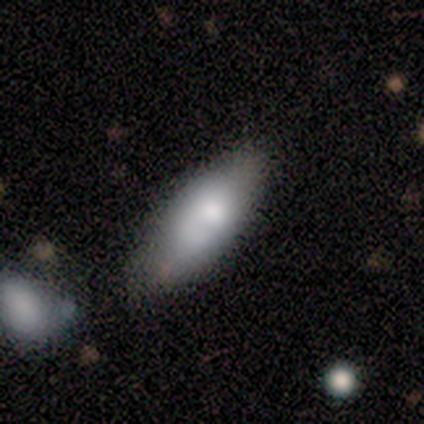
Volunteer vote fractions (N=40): A smooth galaxy with no disk features (88%) that is in between round and cigar-shaped (74%).

Vote fractions:
- Smooth or featured? smooth: 88% / star or artifact: 8% / featured or disk: 5%
- How rounded? in between: 74% / cigar-shaped: 26% / round: 0%
- Merging? none: 73% / minor disturbance: 22% / major disturbance: 3% / merger: 3%